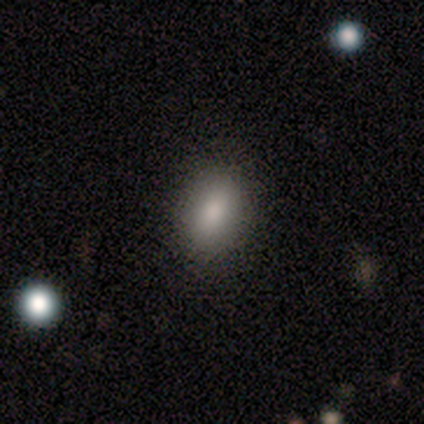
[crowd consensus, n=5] smooth_or_featured: smooth (p=1.00)
how_rounded: in between (p=0.80) [alt: round p=0.20]
merging: none (p=1.00)